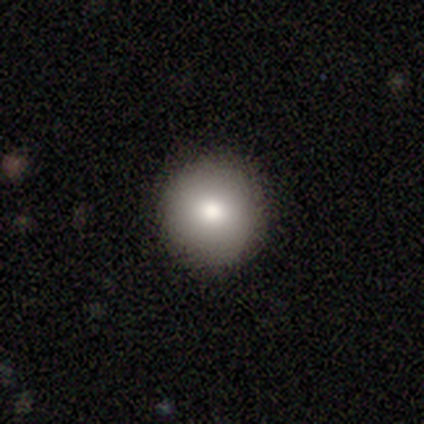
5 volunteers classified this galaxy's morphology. Smooth or featured? smooth (100%)
How rounded? round (100%)
Merging? none (100%)